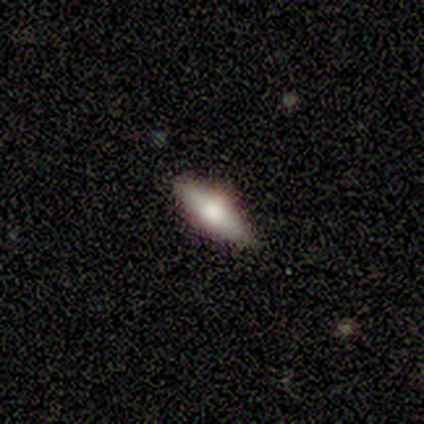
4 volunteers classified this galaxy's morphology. Overall: smooth (50%, tied with featured or disk). How rounded: in between (50%, tied with cigar-shaped). Merging: none (50%, tied with minor disturbance).